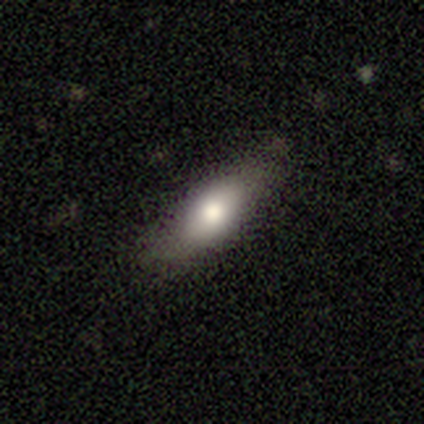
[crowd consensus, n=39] A smooth galaxy with no disk features (67%) that is in between round and cigar-shaped (62%).

Vote fractions:
- Smooth or featured? smooth: 67% / featured or disk: 28% / star or artifact: 5%
- How rounded? in between: 62% / cigar-shaped: 35% / round: 4%
- Merging? none: 78% / major disturbance: 11% / minor disturbance: 8% / merger: 3%